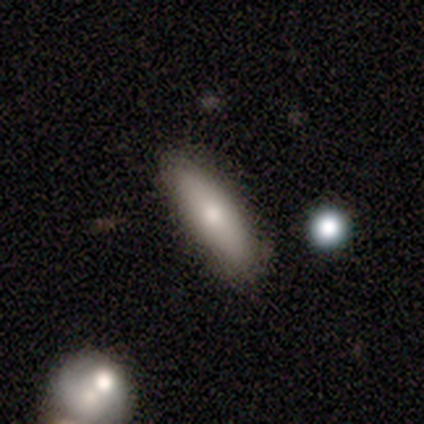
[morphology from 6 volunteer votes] A smooth galaxy with no disk features (83%) that is in between round and cigar-shaped (80%). Merging: none (100%).